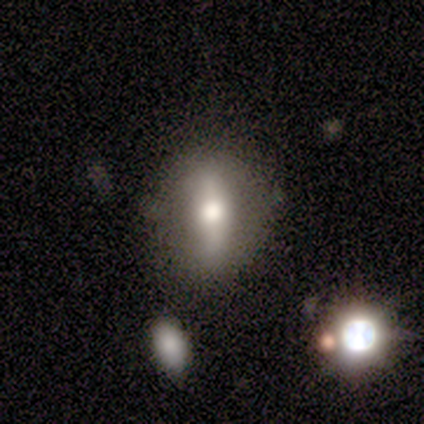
Overall: featured or disk (49%; smooth 43%). Edge-on disk: no (67%; yes 33%). Bar: strong (50%; weak 25%). Spiral arms: no (92%). Bulge size: moderate (42%; large 33%). Merging: none (91%).